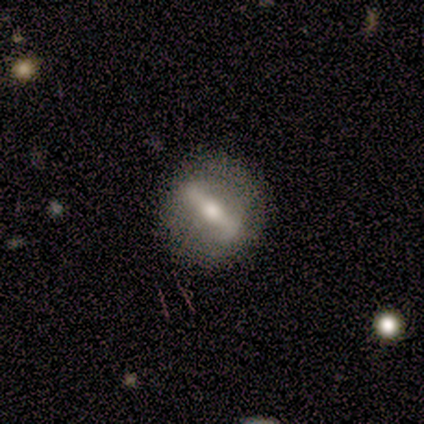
smooth_or_featured: featured or disk (p=0.60) [alt: smooth p=0.40]
disk_edge_on: no (p=0.67) [alt: yes p=0.33]
bar: strong (p=0.50) [tied with: no p=0.50]
has_spiral_arms: no (p=1.00)
bulge_size: moderate (p=0.50) [tied with: small p=0.50]
merging: none (p=0.80) [alt: minor disturbance p=0.20]